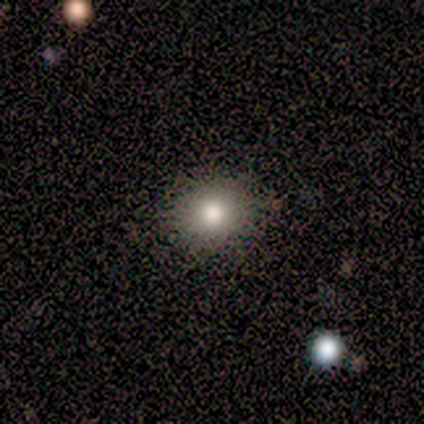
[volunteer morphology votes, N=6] Overall: smooth (67%). How rounded: round (75%). Merging: none (80%).